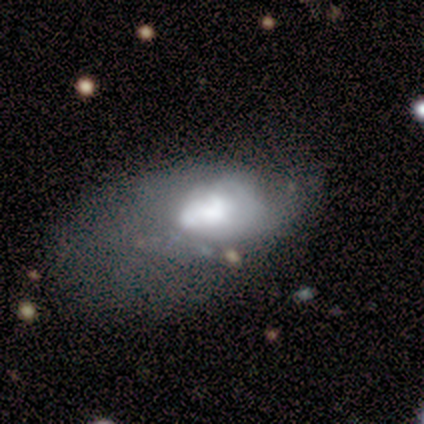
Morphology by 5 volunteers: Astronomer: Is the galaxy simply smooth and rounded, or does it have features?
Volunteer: smooth — 80%.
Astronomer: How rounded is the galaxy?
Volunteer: round — 50%, tied with in between at 50%.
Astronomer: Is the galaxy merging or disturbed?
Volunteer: major disturbance — 50%.